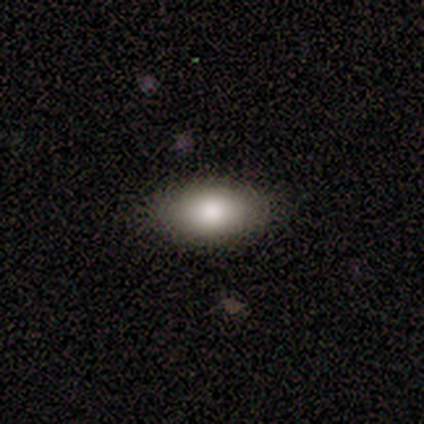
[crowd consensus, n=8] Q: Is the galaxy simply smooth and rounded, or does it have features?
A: smooth — 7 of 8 (88%).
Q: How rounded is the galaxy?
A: in between — 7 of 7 (100%).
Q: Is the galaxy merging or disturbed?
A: none — 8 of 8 (100%).